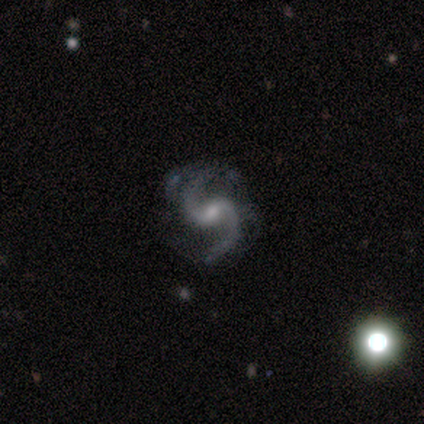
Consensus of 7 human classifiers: A featured or disk galaxy (100%) with a weak bar (86%), 2 (100%) loose (57%) spiral arms (100%) and a small central bulge (71%). Merging: none (57%).